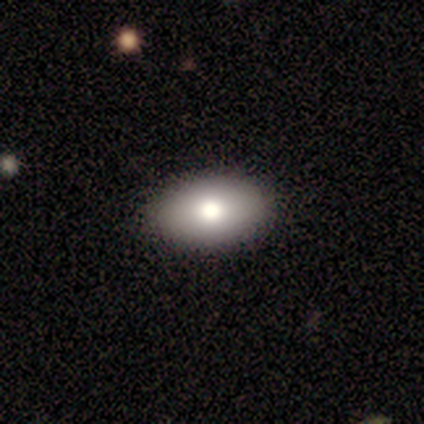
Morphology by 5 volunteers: smooth-or-featured: smooth: 80% | featured or disk: 20% | star or artifact: 0%
  how-rounded: in between: 100% | round: 0% | cigar-shaped: 0%
  merging: none: 100% | minor disturbance: 0% | major disturbance: 0% | merger: 0%